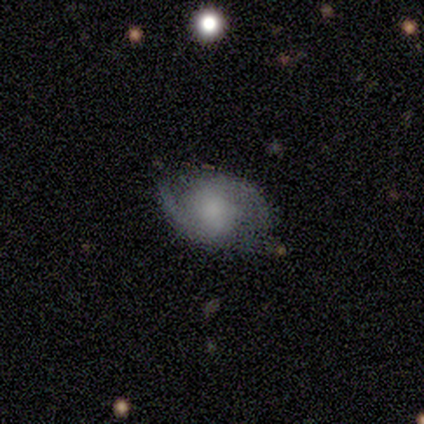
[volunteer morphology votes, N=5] A featured or disk galaxy (80%) with no bar (67%), 2 (100%) medium (100%) spiral arms (67%) and a moderate central bulge (67%).

Vote fractions:
- Smooth or featured? featured or disk: 80% / smooth: 20% / star or artifact: 0%
- Edge-on disk? no: 75% / yes: 25%
- Bar? no: 67% / weak: 33% / strong: 0%
- Spiral arms? yes: 67% / no: 33%
- Spiral winding? medium: 100% / tight: 0% / loose: 0%
- Spiral arm count? 2: 100% / 1: 0% / 3: 0% / 4: 0% / more than 4: 0% / can't tell: 0%
- Bulge size? moderate: 67% / none: 33% / dominant: 0% / large: 0% / small: 0%
- Merging? none: 100% / minor disturbance: 0% / major disturbance: 0% / merger: 0%